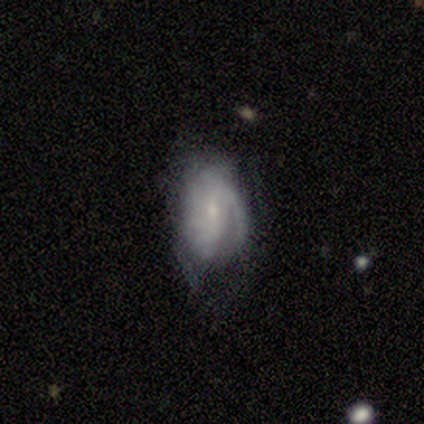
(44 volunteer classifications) Smooth or featured?
  - featured or disk: 50% *
  - smooth: 41%
  - star or artifact: 9%
Edge-on disk?
  - no: 100% *
  - yes: 0%
Bar?
  - weak: 45% * (tied)
  - no: 45% * (tied)
  - strong: 9%
Spiral arms?
  - yes: 73% *
  - no: 27%
Spiral winding?
  - loose: 44% *
  - medium: 31%
  - tight: 25%
Spiral arm count?
  - 1: 44% *
  - can't tell: 38%
  - 3: 12%
  - 2: 6%
  - 4: 0%
  - more than 4: 0%
Bulge size?
  - small: 64% *
  - moderate: 27%
  - none: 9%
  - dominant: 0%
  - large: 0%
Merging?
  - minor disturbance: 35% *
  - none: 32%
  - major disturbance: 30%
  - merger: 2%